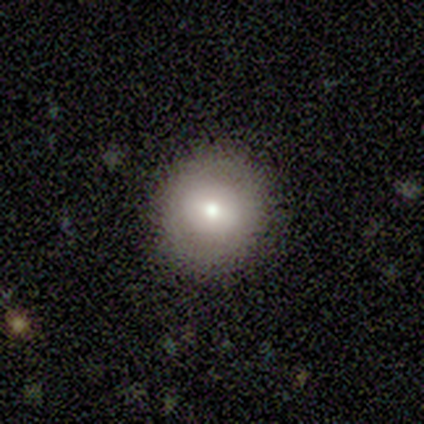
A smooth galaxy with no disk features (80%) that is round (100%).

Vote fractions:
- Smooth or featured? smooth: 80% / star or artifact: 20% / featured or disk: 0%
- How rounded? round: 100% / in between: 0% / cigar-shaped: 0%
- Merging? none: 100% / minor disturbance: 0% / major disturbance: 0% / merger: 0%